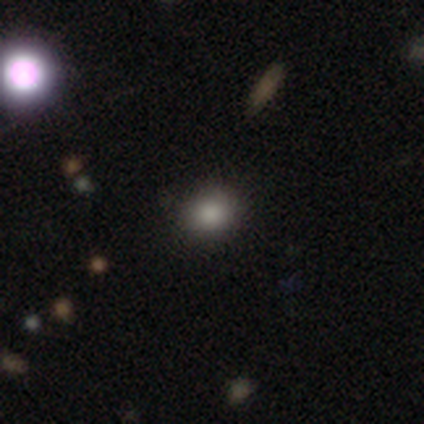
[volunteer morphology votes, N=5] This appears to be a smooth galaxy with no disk features (80%) that is round (75%). Merging: none (75%).